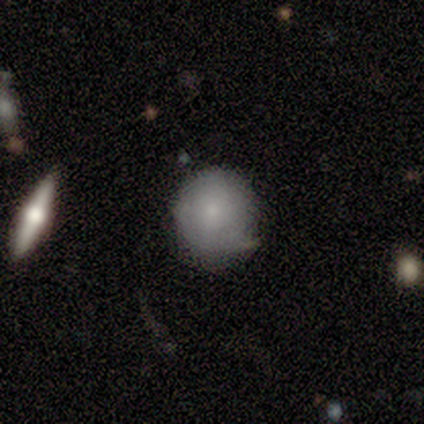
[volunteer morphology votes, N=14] smooth_or_featured: smooth (p=0.71) [alt: featured or disk p=0.21]
how_rounded: round (p=1.00)
merging: none (p=0.69) [alt: minor disturbance p=0.31]